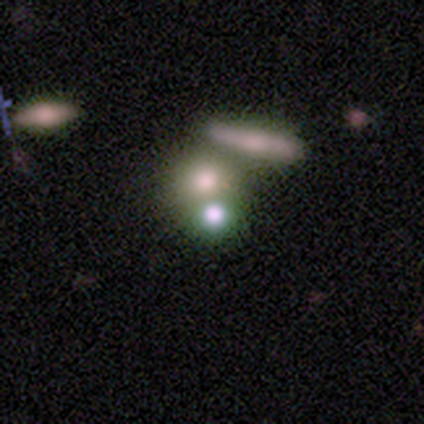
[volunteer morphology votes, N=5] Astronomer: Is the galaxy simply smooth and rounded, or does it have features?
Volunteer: smooth — 60%.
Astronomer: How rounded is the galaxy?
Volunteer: round — 67%.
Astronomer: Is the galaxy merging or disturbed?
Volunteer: merger — 50%.